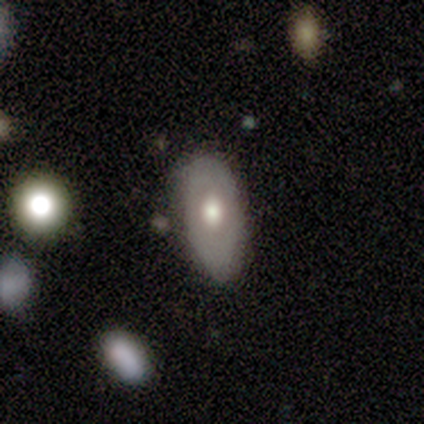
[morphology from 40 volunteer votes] Overall: featured or disk (55%; smooth 40%). Edge-on disk: no (91%). Bar: no (95%). Spiral arms: no (95%). Bulge size: moderate (70%). Merging: none (53%; minor disturbance 42%).